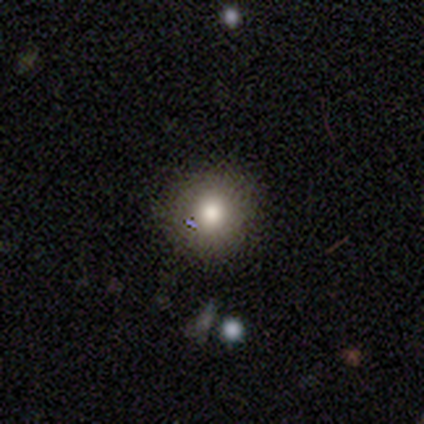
Overall: smooth (77%). How rounded: round (97%). Merging: none (88%).